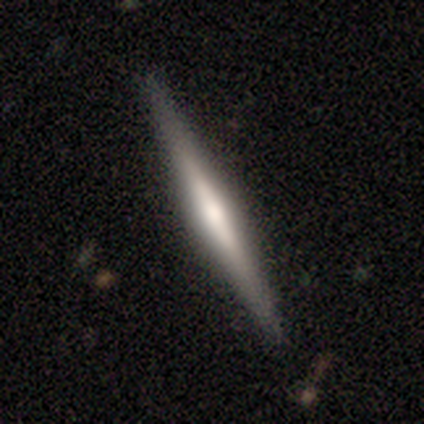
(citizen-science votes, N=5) This appears to be a featured or disk galaxy (60%) viewed edge-on (100%) with a rounded central bulge (67%). Merging: none (75%).